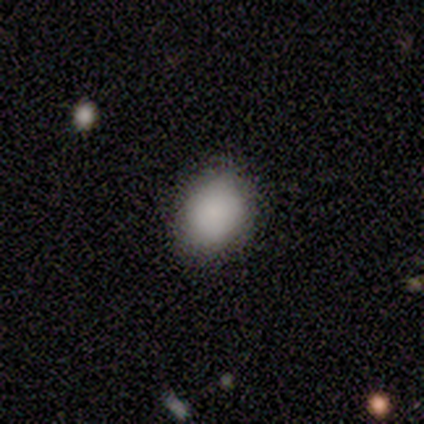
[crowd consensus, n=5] Smooth or featured?
  - smooth: 100% *
  - featured or disk: 0%
  - star or artifact: 0%
How rounded?
  - in between: 80% *
  - round: 20%
  - cigar-shaped: 0%
Merging?
  - none: 60% *
  - minor disturbance: 40%
  - major disturbance: 0%
  - merger: 0%